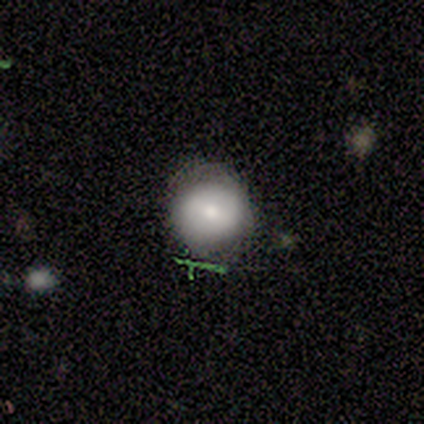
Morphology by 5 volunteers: Q: Smooth or featured?
A: smooth (60%); runner-up: featured or disk (40%)
Q: How rounded?
A: round (100%)
Q: Merging?
A: minor disturbance (60%); runner-up: none (40%)